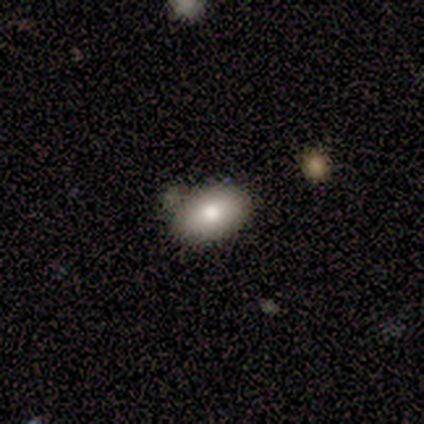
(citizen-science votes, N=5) Overall: smooth (60%; featured or disk 20%). How rounded: in between (67%; round 33%). Merging: none (75%).